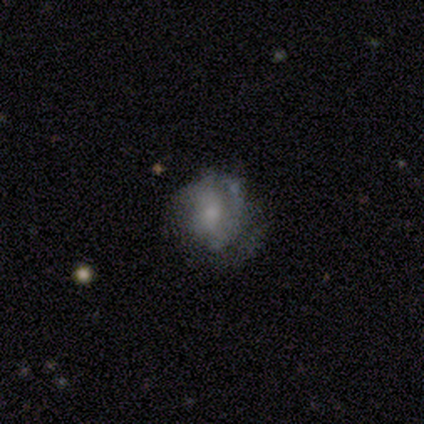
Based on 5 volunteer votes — Morphology: type=smooth (40%, tied with featured or disk); roundness=round (50%, tied with in between); merging=none (50%, tied with minor disturbance).